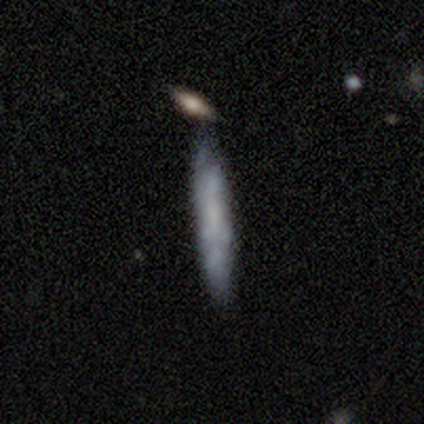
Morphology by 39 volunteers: A smooth galaxy with no disk features (54%) that is cigar-shaped (90%). Merging: none (63%).